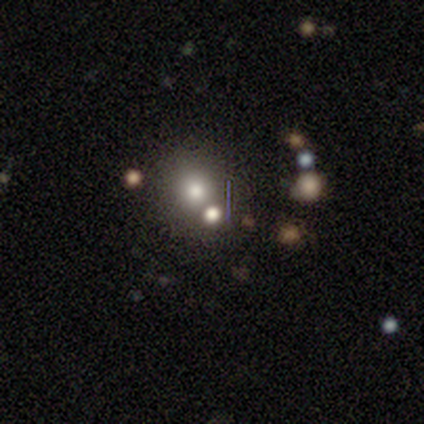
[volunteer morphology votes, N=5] smooth-or-featured: smooth: 80% | star or artifact: 20% | featured or disk: 0%
  how-rounded: round: 100% | in between: 0% | cigar-shaped: 0%
  merging: none: 50% | minor disturbance: 25% | merger: 25% | major disturbance: 0%